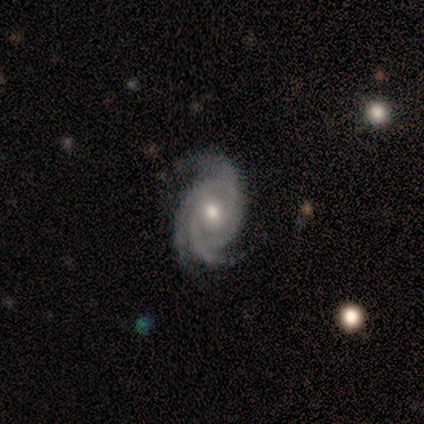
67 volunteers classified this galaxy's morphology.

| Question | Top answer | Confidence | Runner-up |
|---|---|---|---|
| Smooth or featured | featured or disk | 100% | — |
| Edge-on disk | no | 99% | yes (1%) |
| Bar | no | 61% | weak (33%) |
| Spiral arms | yes | 100% | — |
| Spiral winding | tight | 50% | medium (45%) |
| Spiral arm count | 3 | 86% | 2 (5%) |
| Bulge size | moderate | 82% | small (14%) |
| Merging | none | 82% | minor disturbance (13%) |